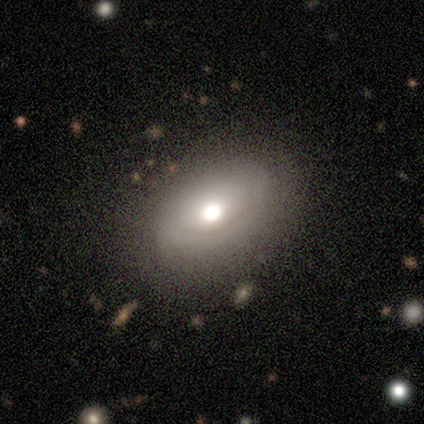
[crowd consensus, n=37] This appears to be a smooth galaxy with no disk features (43%, tied with featured or disk) that is in between round and cigar-shaped (69%). Merging: none (81%).